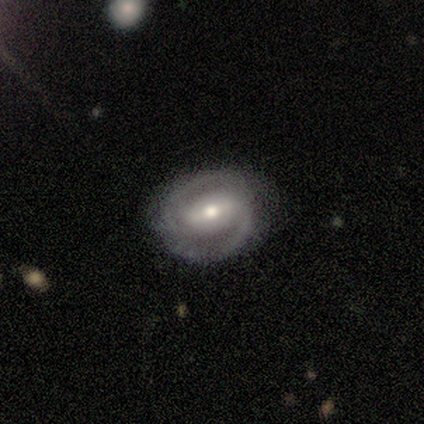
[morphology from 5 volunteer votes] smooth_or_featured: featured or disk (p=1.00)
disk_edge_on: no (p=1.00)
bar: no (p=0.60) [alt: strong p=0.20]
has_spiral_arms: yes (p=0.60) [alt: no p=0.40]
spiral_winding: tight (p=0.67) [alt: loose p=0.33]
spiral_arm_count: 2 (p=1.00)
bulge_size: small (p=0.60) [alt: moderate p=0.40]
merging: none (p=0.80) [alt: minor disturbance p=0.20]